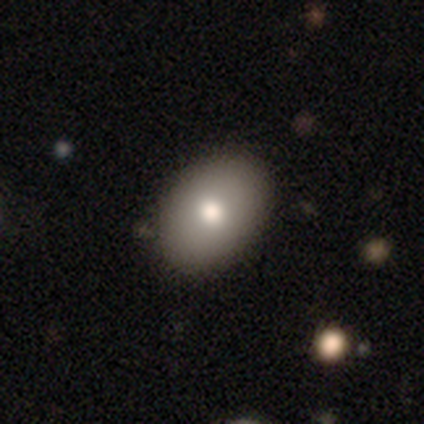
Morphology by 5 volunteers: Smooth or featured?
  - smooth: 80% *
  - star or artifact: 20%
  - featured or disk: 0%
How rounded?
  - in between: 75% *
  - round: 25%
  - cigar-shaped: 0%
Merging?
  - none: 50% * (tied)
  - minor disturbance: 50% * (tied)
  - major disturbance: 0%
  - merger: 0%